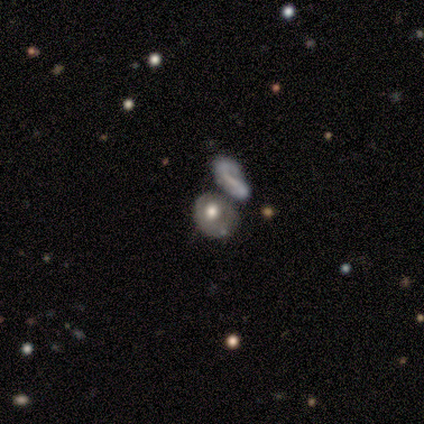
smooth-or-featured: smooth: 45% | featured or disk: 36% | star or artifact: 18%
  how-rounded: round: 80% | cigar-shaped: 20% | in between: 0%
  merging: merger: 33% | none: 22% | minor disturbance: 22% | major disturbance: 22%